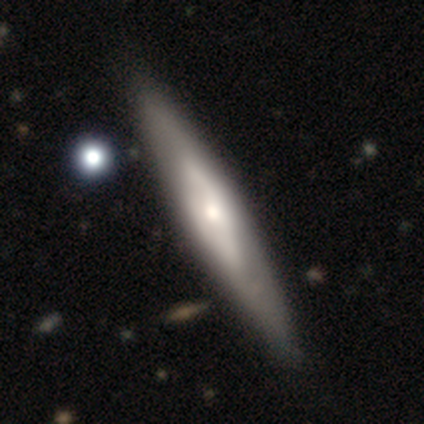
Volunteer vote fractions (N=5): smooth-or-featured: featured or disk: 100% | smooth: 0% | star or artifact: 0%
  disk-edge-on: yes: 60% | no: 40%
    edge-on-bulge: rounded: 100% | boxy: 0% | none: 0%
  merging: none: 80% | minor disturbance: 20% | major disturbance: 0% | merger: 0%